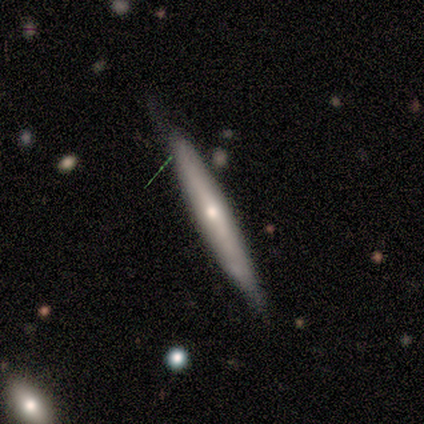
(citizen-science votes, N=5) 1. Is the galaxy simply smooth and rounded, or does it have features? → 100% featured or disk, 0% smooth, 0% star or artifact.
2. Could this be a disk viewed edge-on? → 100% yes, 0% no.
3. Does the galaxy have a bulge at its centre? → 60% rounded, 40% none, 0% boxy.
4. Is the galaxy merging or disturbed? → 60% none, 20% minor disturbance, 20% major disturbance, 0% merger.